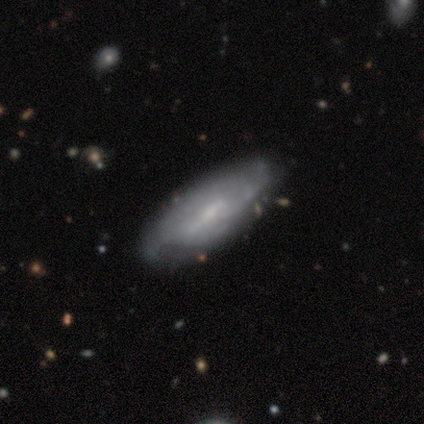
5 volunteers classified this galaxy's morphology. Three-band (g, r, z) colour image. It shows a featured or disk galaxy (80%) with no bar (67%), no spiral arms (100%) and a small central bulge (67%). Merging: none (60%).